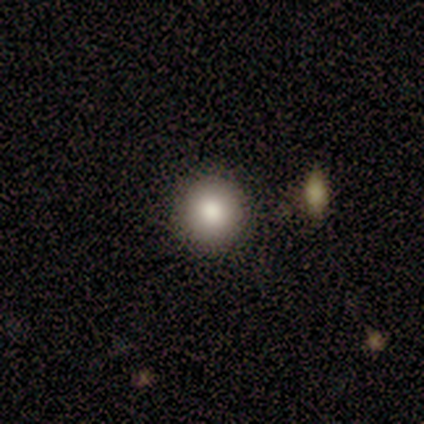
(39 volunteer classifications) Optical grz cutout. It shows a smooth galaxy with no disk features (79%) that is round (87%). Merging: none (91%).